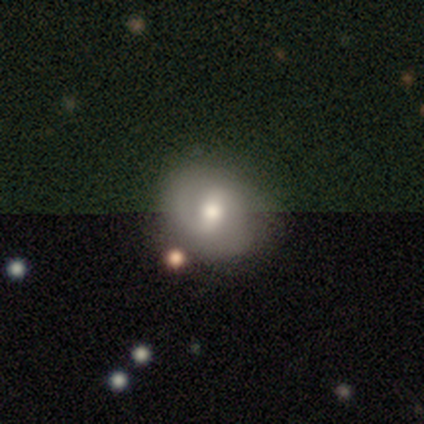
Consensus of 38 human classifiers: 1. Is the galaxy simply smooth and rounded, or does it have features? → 66% featured or disk, 24% smooth, 11% star or artifact.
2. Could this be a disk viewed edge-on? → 92% no, 8% yes.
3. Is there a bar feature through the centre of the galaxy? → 78% weak, 13% strong, 9% no.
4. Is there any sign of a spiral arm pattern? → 87% yes, 13% no.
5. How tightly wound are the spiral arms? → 50% medium, 25% tight, 25% loose.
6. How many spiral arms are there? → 60% 2, 35% can't tell, 5% 1, 0% 3, 0% 4, 0% more than 4.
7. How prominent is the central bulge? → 65% moderate, 30% small, 4% large, 0% dominant, 0% none.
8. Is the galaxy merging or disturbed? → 74% none, 15% minor disturbance, 9% major disturbance, 3% merger.